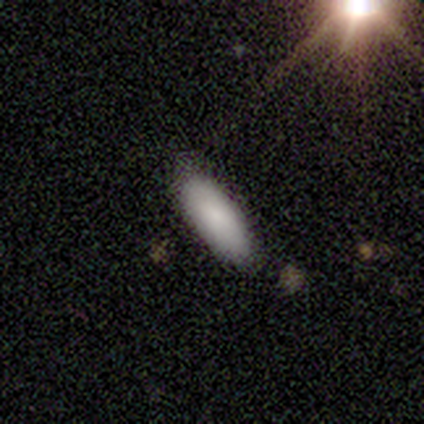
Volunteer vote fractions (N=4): Morphology: type=smooth (75%); roundness=in between (67%); merging=minor disturbance (67%).